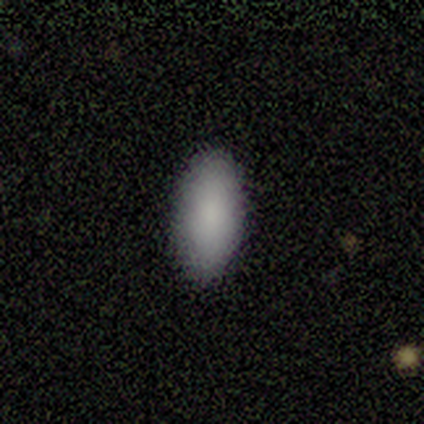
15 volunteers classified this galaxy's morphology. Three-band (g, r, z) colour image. It shows a smooth galaxy with no disk features (93%) that is in between round and cigar-shaped (93%). Merging: none (93%).